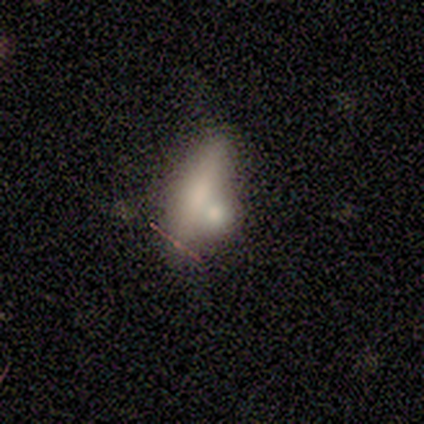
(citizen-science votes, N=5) This is likely a featured or disk galaxy (60%). It is clearly viewed edge-on (100%). Edge-on bulge: likely rounded (67%). Merging: marginally none (40%, tied with merger).